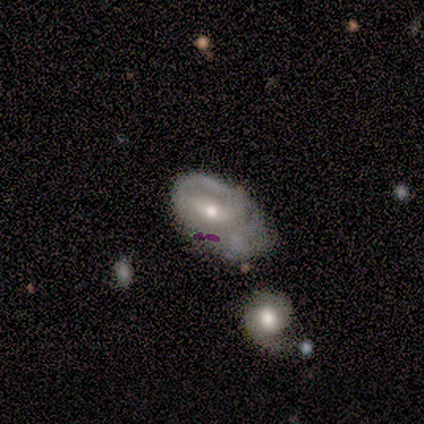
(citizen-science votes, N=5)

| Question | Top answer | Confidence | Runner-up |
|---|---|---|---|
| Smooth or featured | featured or disk | 80% | smooth (20%) |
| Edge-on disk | no | 100% | — |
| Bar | no | 50% | strong (25%) |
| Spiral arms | yes | 50% | tied: no (50%) |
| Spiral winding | medium | 50% | tied: loose (50%) |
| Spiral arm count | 2 | 50% | tied: can't tell (50%) |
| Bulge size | moderate | 50% | tied: small (50%) |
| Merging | minor disturbance | 80% | major disturbance (20%) |